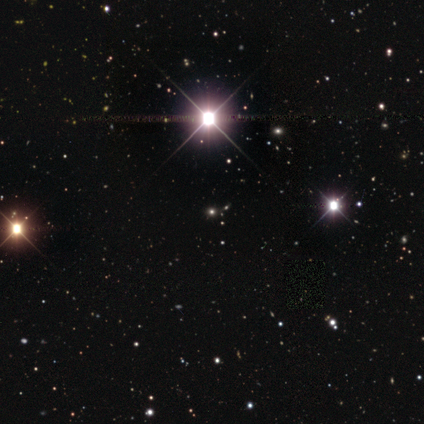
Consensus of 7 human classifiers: This is possibly a star or artifact rather than a galaxy (57%).